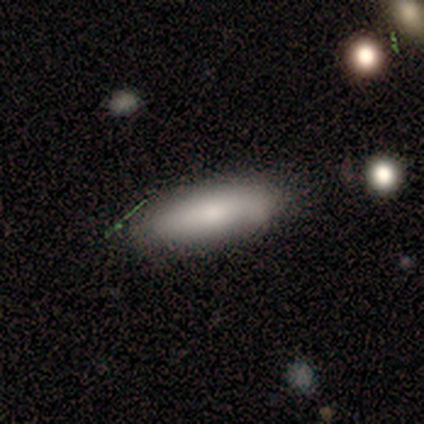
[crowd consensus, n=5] Q: Smooth or featured?
A: smooth (80%); runner-up: featured or disk (20%)
Q: How rounded?
A: in between (75%); runner-up: cigar-shaped (25%)
Q: Merging?
A: none (80%); runner-up: minor disturbance (20%)